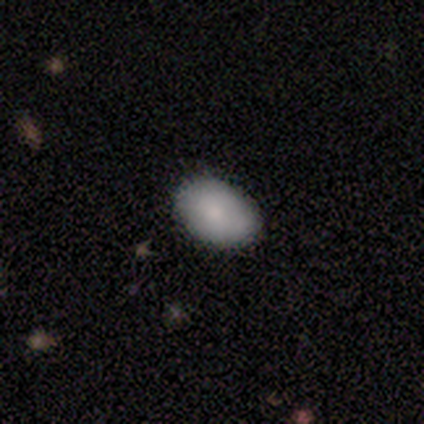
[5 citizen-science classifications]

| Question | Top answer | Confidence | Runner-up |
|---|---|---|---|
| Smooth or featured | smooth | 80% | featured or disk (20%) |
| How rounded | in between | 75% | round (25%) |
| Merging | none | 80% | minor disturbance (20%) |